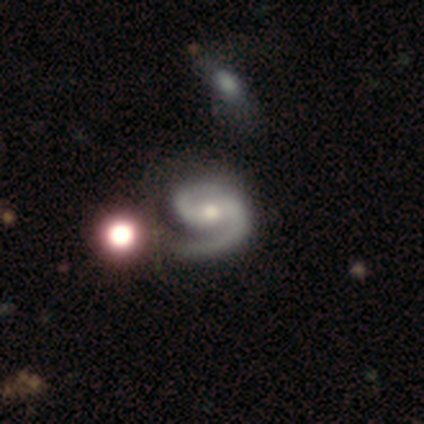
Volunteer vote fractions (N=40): This is clearly a featured or disk galaxy (98%). It is clearly not viewed edge-on (95%). Bar: marginally no (41%). Spiral arm pattern: clearly yes (97%). Spiral arm count: clearly 2 (86%). Spiral winding: likely medium (67%). Central bulge: possibly moderate (54%). Merging: possibly none (46%).